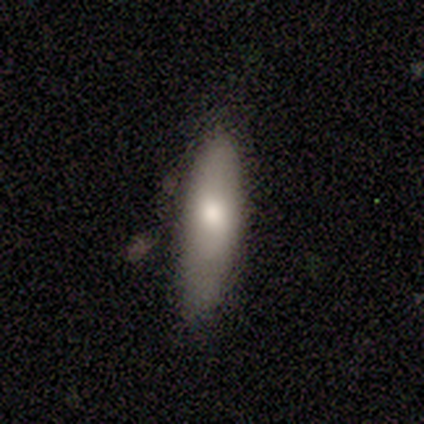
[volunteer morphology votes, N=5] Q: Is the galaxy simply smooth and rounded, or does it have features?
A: smooth — 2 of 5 (40%, tied with featured or disk).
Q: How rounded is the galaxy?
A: in between — 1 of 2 (50%, tied with cigar-shaped).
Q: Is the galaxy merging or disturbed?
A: minor disturbance — 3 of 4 (75%).